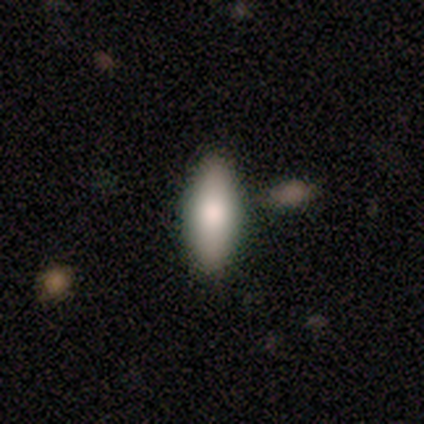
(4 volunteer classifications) Volunteers were most divided on "smooth or featured" (2-way tie): smooth: 50%, featured or disk: 50%, star or artifact: 0%. More confident: how rounded — in between (100%); merging — none (100%).